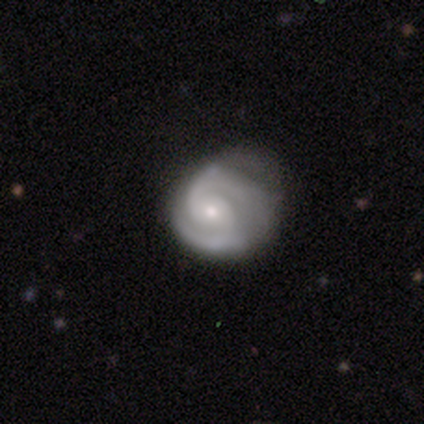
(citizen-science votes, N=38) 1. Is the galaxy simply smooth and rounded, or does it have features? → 82% featured or disk, 16% smooth, 3% star or artifact.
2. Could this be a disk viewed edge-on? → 100% no, 0% yes.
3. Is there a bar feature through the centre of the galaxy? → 71% no, 26% weak, 3% strong.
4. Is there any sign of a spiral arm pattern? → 100% yes, 0% no.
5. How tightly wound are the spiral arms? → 52% tight, 42% medium, 6% loose.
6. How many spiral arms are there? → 90% 2, 10% 3, 0% 1, 0% 4, 0% more than 4, 0% can't tell.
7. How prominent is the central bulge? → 71% small, 29% moderate, 0% dominant, 0% large, 0% none.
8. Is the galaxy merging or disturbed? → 41% minor disturbance, 35% none, 22% major disturbance, 3% merger.